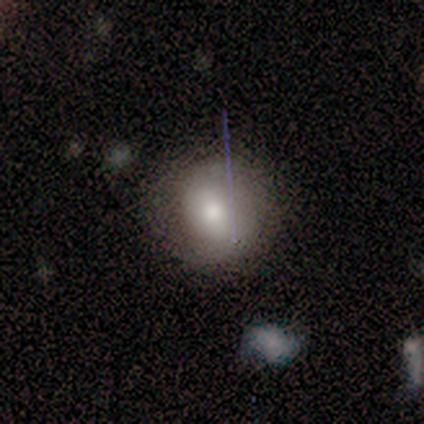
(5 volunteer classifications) Smooth or featured? smooth (60%)
How rounded? round (67%)
Merging? none (80%)